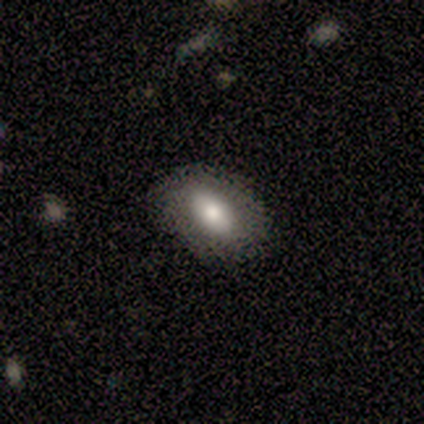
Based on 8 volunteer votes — smooth 88%, featured or disk 12%, star or artifact 0%. Down the decision tree: how rounded — in between (86%); merging — none (88%).